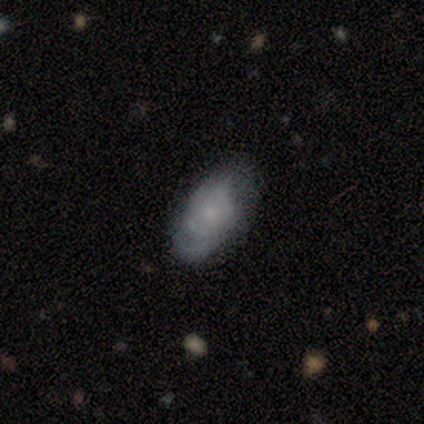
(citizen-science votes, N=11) featured or disk 73%, smooth 27%, star or artifact 0%. Down the decision tree: edge-on disk — no (88%); bar — no (86%); spiral arms — yes (57%); spiral arm count — 2 (50%, tied with can't tell); spiral winding — tight (75%); bulge size — small (71%); merging — none (64%).